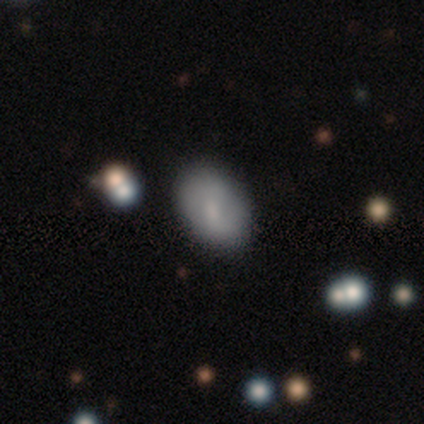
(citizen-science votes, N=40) This is likely a smooth galaxy (72%). How rounded: clearly in between (83%). Merging: likely none (76%).